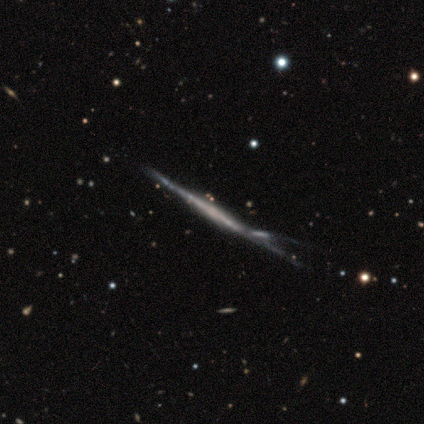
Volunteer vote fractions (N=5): Smooth or featured: smooth — 40% (tied with featured or disk — 40%)
How rounded: round — 50% (tied with cigar-shaped — 50%)
Merging: none — 50% (minor disturbance — 25%)